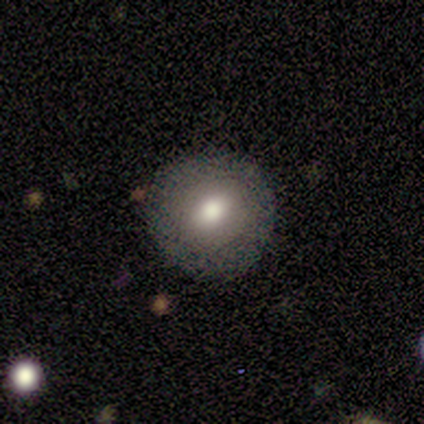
This appears to be a smooth galaxy with no disk features (62%) that is round (90%). Merging: none (87%).